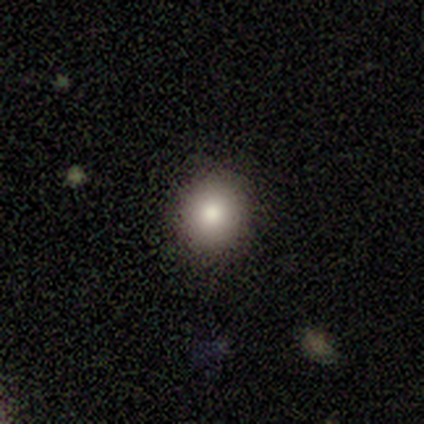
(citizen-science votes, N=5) Overall: smooth (100%). How rounded: round (100%). Merging: none (100%).